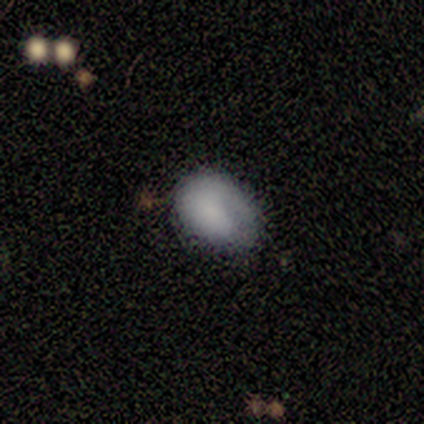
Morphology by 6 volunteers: smooth_or_featured: smooth (p=1.00)
how_rounded: in between (p=0.83) [alt: round p=0.17]
merging: minor disturbance (p=0.67) [alt: none p=0.17]